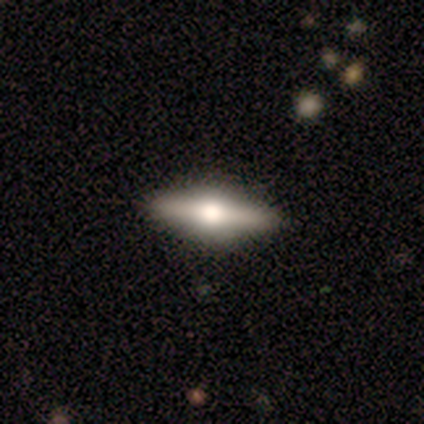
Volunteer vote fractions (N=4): smooth-or-featured: featured or disk: 75% | smooth: 25% | star or artifact: 0%
  disk-edge-on: yes: 67% | no: 33%
    edge-on-bulge: rounded: 100% | boxy: 0% | none: 0%
  merging: none: 100% | minor disturbance: 0% | major disturbance: 0% | merger: 0%